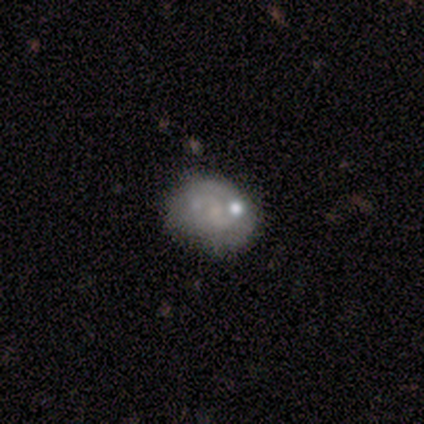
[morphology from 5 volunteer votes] This is likely a featured or disk galaxy (60%). It is clearly not viewed edge-on (100%). Bar: likely no (67%). Spiral arm pattern: likely no (67%). Central bulge: likely none (67%). Merging: clearly none (80%).